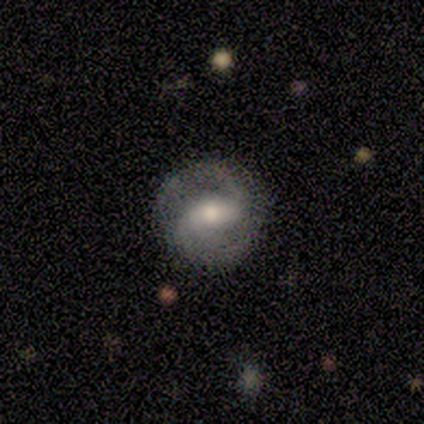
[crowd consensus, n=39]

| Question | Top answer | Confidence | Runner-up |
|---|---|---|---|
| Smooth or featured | featured or disk | 79% | smooth (15%) |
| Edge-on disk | no | 94% | yes (6%) |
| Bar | strong | 41% | weak (38%) |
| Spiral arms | yes | 86% | no (14%) |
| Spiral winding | medium | 64% | tight (24%) |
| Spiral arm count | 2 | 96% | can't tell (4%) |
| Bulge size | moderate | 59% | small (28%) |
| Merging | none | 78% | minor disturbance (16%) |